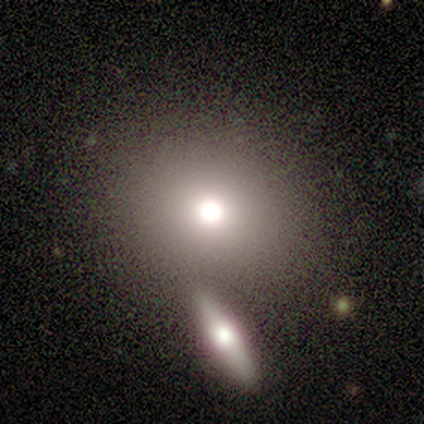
A smooth galaxy with no disk features (82%) that is round (78%).

Vote fractions:
- Smooth or featured? smooth: 82% / star or artifact: 18% / featured or disk: 0%
- How rounded? round: 78% / in between: 11% / cigar-shaped: 11%
- Merging? none: 56% / merger: 33% / major disturbance: 11% / minor disturbance: 0%